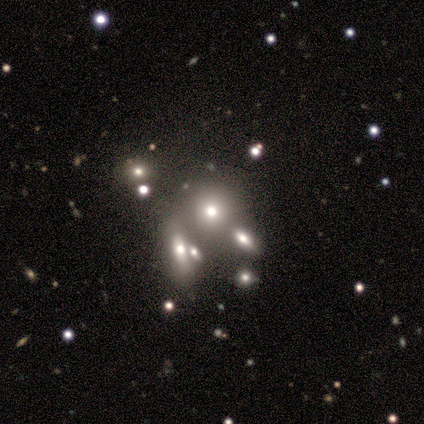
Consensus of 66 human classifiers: Volunteers were most divided on "how rounded": round: 67%, in between: 33%, cigar-shaped: 0%. More confident: smooth or featured — smooth (64%); merging — merger (58%).